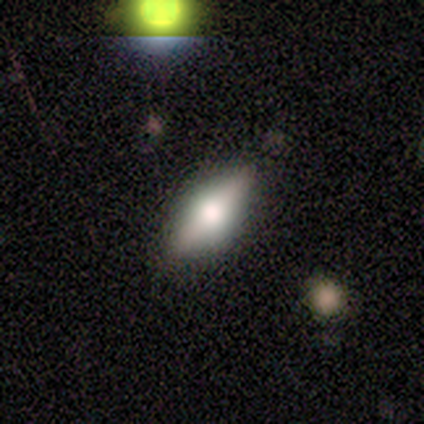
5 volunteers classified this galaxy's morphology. This appears to be a smooth galaxy with no disk features (80%) that is in between round and cigar-shaped (50%, tied with cigar-shaped). Merging: none (80%).